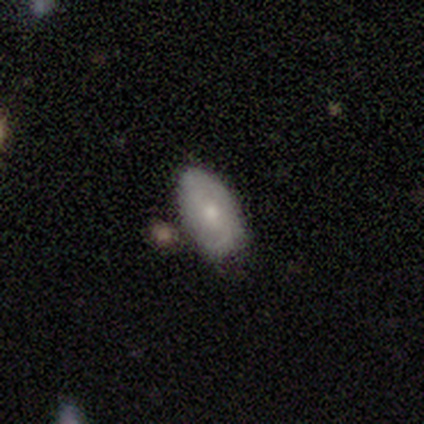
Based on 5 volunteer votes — Overall: smooth (60%; featured or disk 40%). How rounded: in between (100%). Merging: none (100%).